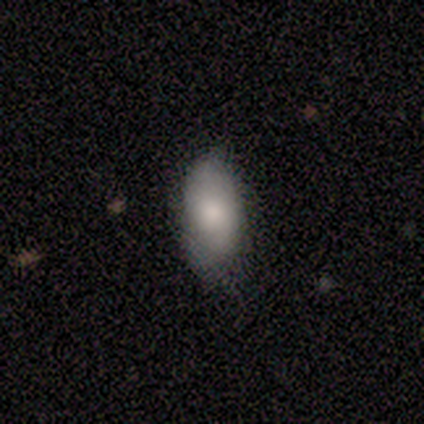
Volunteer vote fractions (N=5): Q: Smooth or featured?
A: smooth (60%); runner-up: featured or disk (20%)
Q: How rounded?
A: in between (100%)
Q: Merging?
A: none (50%); tied with: minor disturbance (50%)